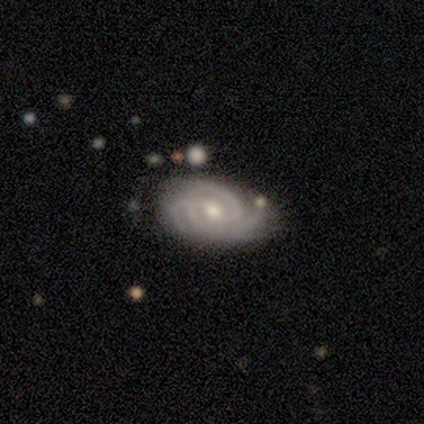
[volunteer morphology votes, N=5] Q: Smooth or featured?
A: featured or disk (80%); runner-up: star or artifact (20%)
Q: Edge-on disk?
A: no (100%)
Q: Bar?
A: no (100%)
Q: Spiral arms?
A: yes (100%)
Q: Spiral winding?
A: tight (75%); runner-up: medium (25%)
Q: Spiral arm count?
A: 3 (50%); runner-up: 4 (25%)
Q: Bulge size?
A: moderate (100%)
Q: Merging?
A: none (50%); runner-up: minor disturbance (25%)